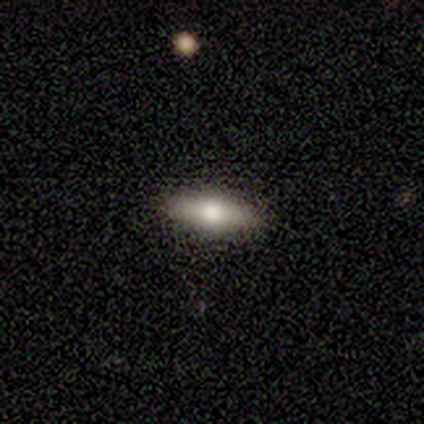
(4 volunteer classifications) Morphology: type=featured or disk (50%); edge-on=yes (100%); edge-on bulge=none (50%, tied with rounded); merging=none (100%).